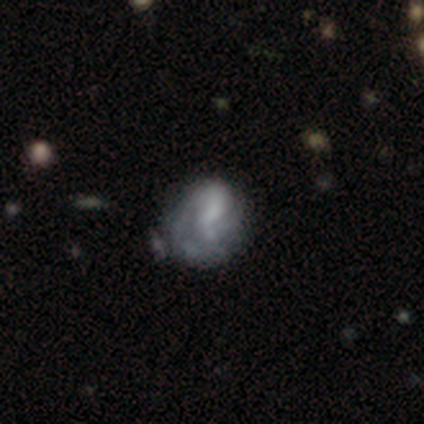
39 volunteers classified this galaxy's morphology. featured or disk 62%, smooth 31%, star or artifact 8%. Down the decision tree: edge-on disk — no (96%); bar — no (70%); spiral arms — yes (57%); spiral arm count — 2 (69%); spiral winding — tight (62%); bulge size — small (35%, tied with none); merging — none (47%).